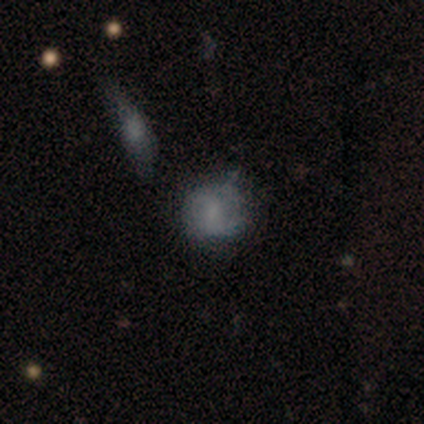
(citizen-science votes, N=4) smooth-or-featured: smooth: 50% (tied) | featured or disk: 50% (tied) | star or artifact: 0%
  how-rounded: round: 50% (tied) | in between: 50% (tied) | cigar-shaped: 0%
  merging: minor disturbance: 50% | none: 25% | merger: 25% | major disturbance: 0%